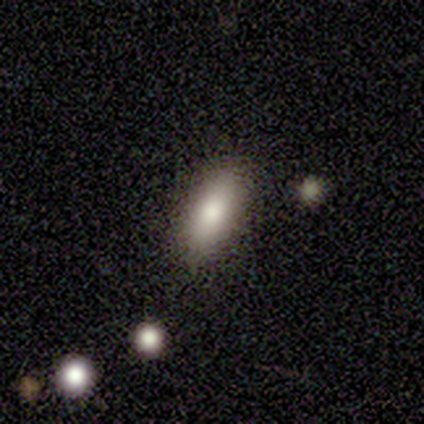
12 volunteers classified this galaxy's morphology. smooth 67%, featured or disk 17%, star or artifact 17%. Down the decision tree: how rounded — in between (75%); merging — none (80%).